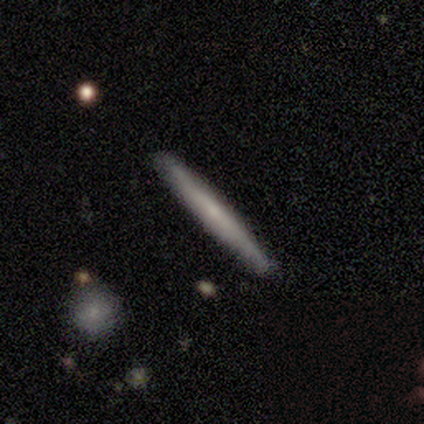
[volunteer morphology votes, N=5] Overall: featured or disk (60%; smooth 40%). Edge-on disk: yes (100%). Edge-on bulge: none (67%; boxy 33%). Merging: none (100%).